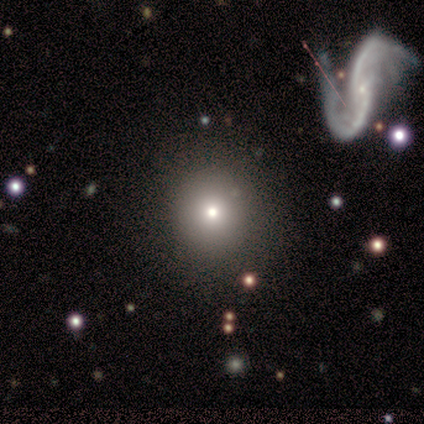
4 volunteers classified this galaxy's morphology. smooth_or_featured: smooth (p=0.75) [alt: featured or disk p=0.25]
how_rounded: round (p=1.00)
merging: none (p=0.50) [alt: minor disturbance p=0.25]